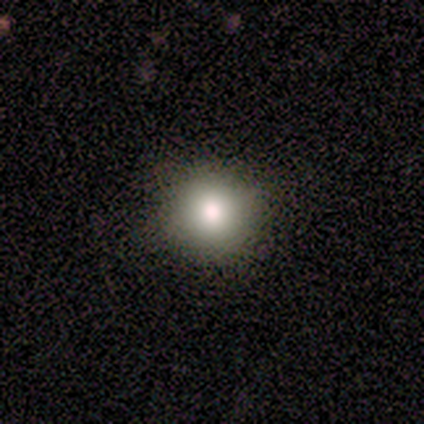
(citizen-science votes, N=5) Q: Smooth or featured?
A: smooth (80%); runner-up: star or artifact (20%)
Q: How rounded?
A: round (100%)
Q: Merging?
A: none (75%); runner-up: minor disturbance (25%)